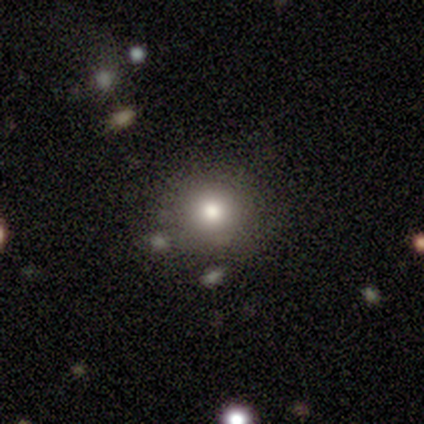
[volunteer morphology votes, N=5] A smooth galaxy with no disk features (80%) that is round (100%).

Vote fractions:
- Smooth or featured? smooth: 80% / star or artifact: 20% / featured or disk: 0%
- How rounded? round: 100% / in between: 0% / cigar-shaped: 0%
- Merging? none: 100% / minor disturbance: 0% / major disturbance: 0% / merger: 0%